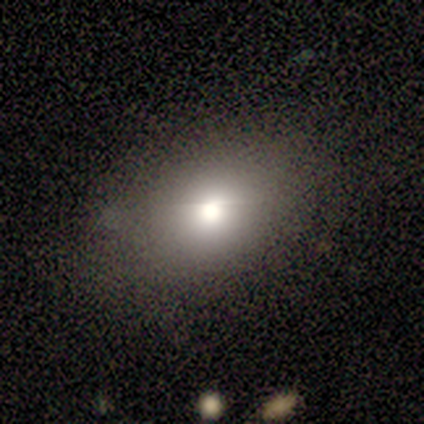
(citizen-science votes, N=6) smooth 67%, star or artifact 33%, featured or disk 0%. Down the decision tree: how rounded — in between (100%); merging — none (100%).